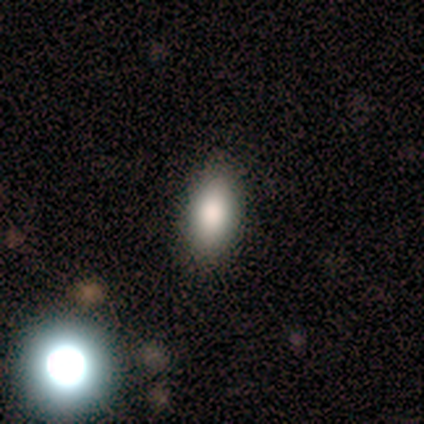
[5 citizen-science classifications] Volunteers were most divided on "smooth or featured": star or artifact: 60%, smooth: 40%, featured or disk: 0%.